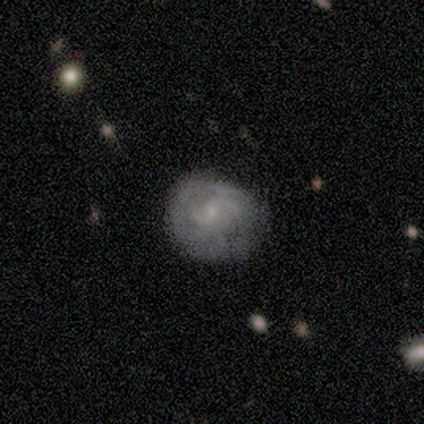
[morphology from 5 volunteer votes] Volunteers were most divided on "spiral winding": tight: 50%, medium: 25%, loose: 25%. More confident: edge-on disk — no (100%); spiral arms — yes (100%); bulge size — small (100%); smooth or featured — featured or disk (80%); merging — none (80%); bar — weak (75%); spiral arm count — can't tell (75%).